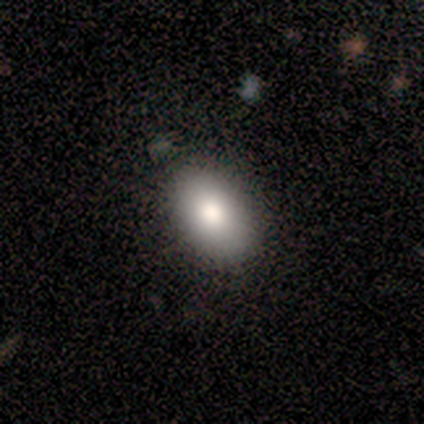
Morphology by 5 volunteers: Smooth or featured? smooth (100%)
How rounded? in between (100%)
Merging? none (60%)